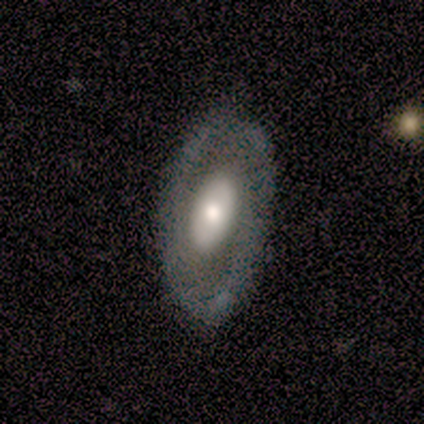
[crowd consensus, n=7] smooth-or-featured: featured or disk: 71% | smooth: 14% | star or artifact: 14%
  disk-edge-on: no: 100% | yes: 0%
    bar: no: 80% | weak: 20% | strong: 0%
    has-spiral-arms: no: 80% | yes: 20%
    bulge-size: large: 60% | moderate: 20% | small: 20% | dominant: 0% | none: 0%
  merging: none: 83% | minor disturbance: 17% | major disturbance: 0% | merger: 0%